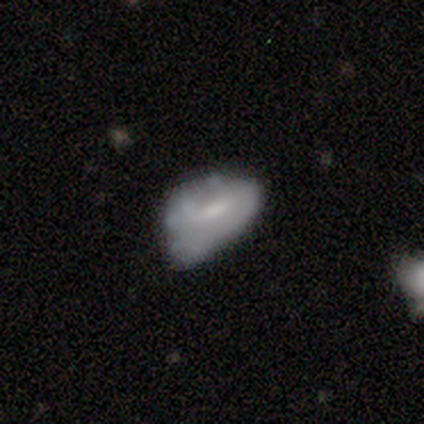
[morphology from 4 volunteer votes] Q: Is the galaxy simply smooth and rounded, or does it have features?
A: smooth — 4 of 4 (100%).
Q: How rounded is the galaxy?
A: in between — 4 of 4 (100%).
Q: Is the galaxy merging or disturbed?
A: minor disturbance — 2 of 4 (50%).